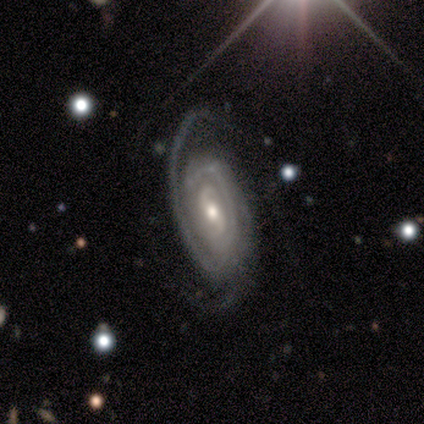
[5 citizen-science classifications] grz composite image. It shows a featured or disk galaxy (80%) with a weak bar (100%), 2 (100%) tight (67%) spiral arms (100%) and a small central bulge (67%). Merging: major disturbance (50%).